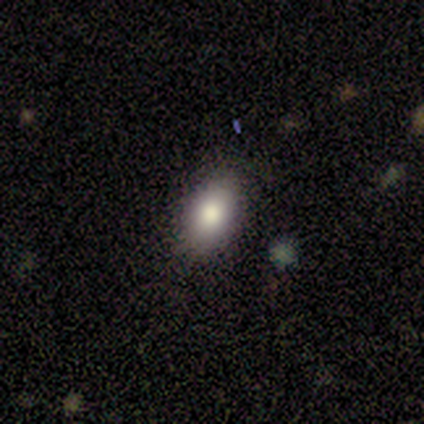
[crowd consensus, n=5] smooth-or-featured: smooth: 100% | featured or disk: 0% | star or artifact: 0%
  how-rounded: in between: 100% | round: 0% | cigar-shaped: 0%
  merging: none: 100% | minor disturbance: 0% | major disturbance: 0% | merger: 0%